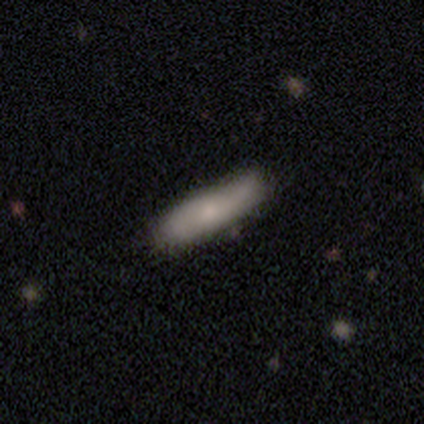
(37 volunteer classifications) Morphology: type=smooth (73%); roundness=cigar-shaped (70%); merging=none (27%).